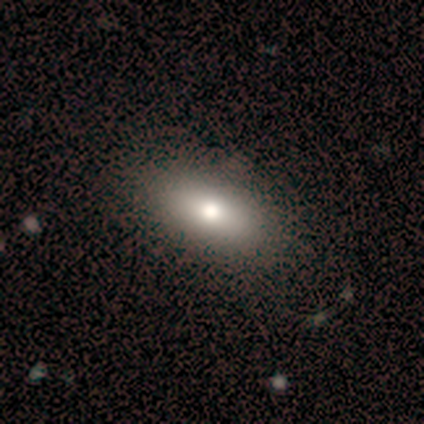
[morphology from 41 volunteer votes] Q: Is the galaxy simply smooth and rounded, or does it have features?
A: smooth — 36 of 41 (88%).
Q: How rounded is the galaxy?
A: in between — 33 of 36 (92%).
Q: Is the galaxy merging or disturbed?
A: none — 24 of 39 (62%).